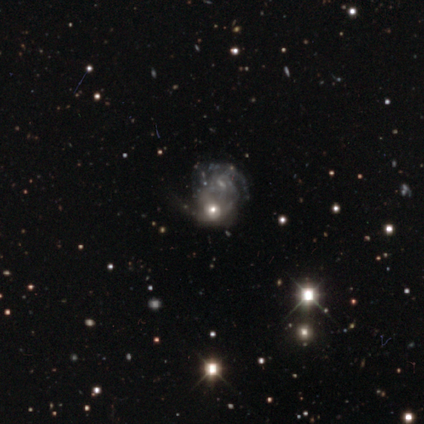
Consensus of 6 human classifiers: smooth_or_featured: featured or disk (p=0.50) [alt: star or artifact p=0.33]
disk_edge_on: no (p=1.00)
bar: weak (p=0.67) [alt: no p=0.33]
has_spiral_arms: yes (p=1.00)
spiral_winding: tight (p=0.33) [tied with: medium p=0.33, loose p=0.33]
spiral_arm_count: can't tell (p=0.67) [alt: 2 p=0.33]
bulge_size: small (p=0.67) [alt: moderate p=0.33]
merging: merger (p=1.00)